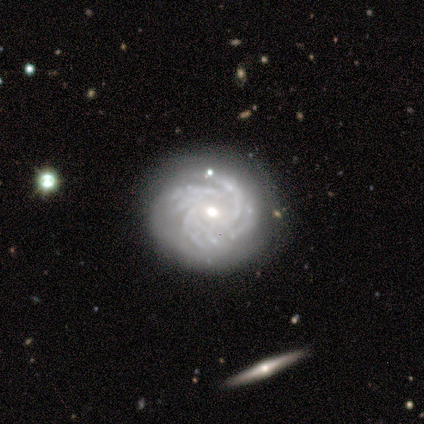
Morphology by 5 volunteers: Smooth or featured? 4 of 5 (80%) said featured or disk. Edge-on disk? 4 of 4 (100%) said no. Bar? 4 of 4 (100%) said no. Spiral arms? 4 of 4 (100%) said yes. Spiral winding? 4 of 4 (100%) said tight. Spiral arm count? 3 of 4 (75%) said more than 4. Bulge size? 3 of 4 (75%) said moderate. Merging? 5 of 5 (100%) said none.